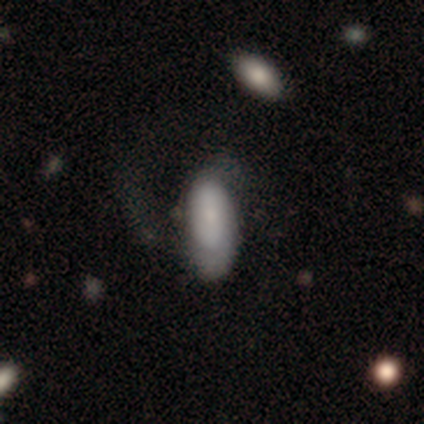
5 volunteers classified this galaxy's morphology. type=featured or disk (60%); edge-on=no (100%); bar=no (100%); spiral arms=yes (100%); winding=tight (67%); arm count=1 (33%, tied with 2 and can't tell); bulge=small (100%); merging=none (60%).